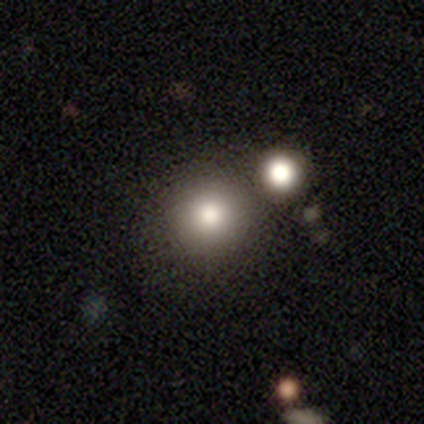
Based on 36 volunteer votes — Morphology: type=smooth (78%); roundness=round (93%); merging=none (66%).